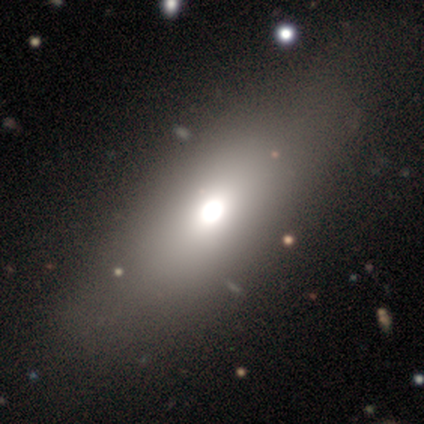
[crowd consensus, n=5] This appears to be a smooth galaxy with no disk features (80%) that is in between round and cigar-shaped (50%, tied with cigar-shaped). Merging: none (80%).